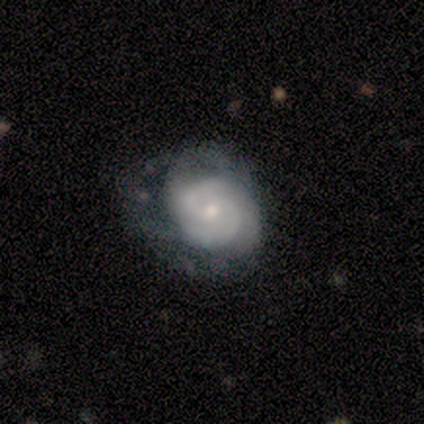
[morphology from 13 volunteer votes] Q: Smooth or featured?
A: featured or disk (85%); runner-up: smooth (8%)
Q: Edge-on disk?
A: no (100%)
Q: Bar?
A: no (64%); runner-up: weak (36%)
Q: Spiral arms?
A: yes (100%)
Q: Spiral winding?
A: medium (64%); runner-up: tight (27%)
Q: Spiral arm count?
A: 2 (91%); runner-up: can't tell (9%)
Q: Bulge size?
A: small (55%); runner-up: moderate (45%)
Q: Merging?
A: none (42%); tied with: minor disturbance (42%)